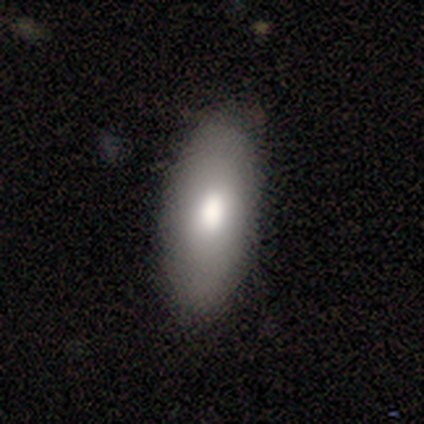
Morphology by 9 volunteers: A smooth galaxy with no disk features (78%) that is in between round and cigar-shaped (71%).

Vote fractions:
- Smooth or featured? smooth: 78% / featured or disk: 11% / star or artifact: 11%
- How rounded? in between: 71% / cigar-shaped: 29% / round: 0%
- Merging? none: 75% / minor disturbance: 25% / major disturbance: 0% / merger: 0%